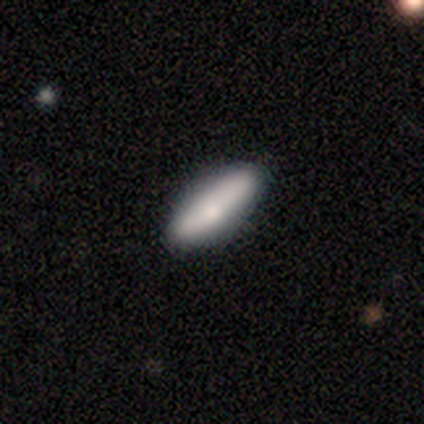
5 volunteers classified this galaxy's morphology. smooth-or-featured: smooth: 80% | featured or disk: 20% | star or artifact: 0%
  how-rounded: cigar-shaped: 75% | in between: 25% | round: 0%
  merging: none: 80% | minor disturbance: 20% | major disturbance: 0% | merger: 0%